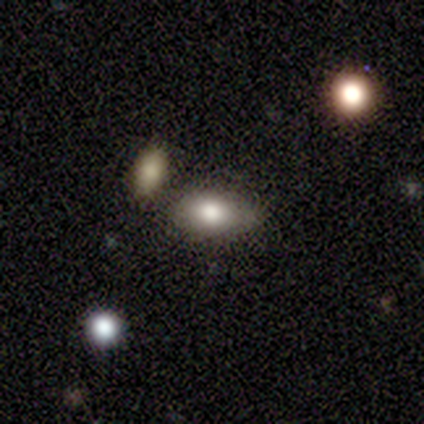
Q: Smooth or featured?
A: smooth (80%); runner-up: featured or disk (20%)
Q: How rounded?
A: in between (100%)
Q: Merging?
A: none (40%); tied with: merger (40%)